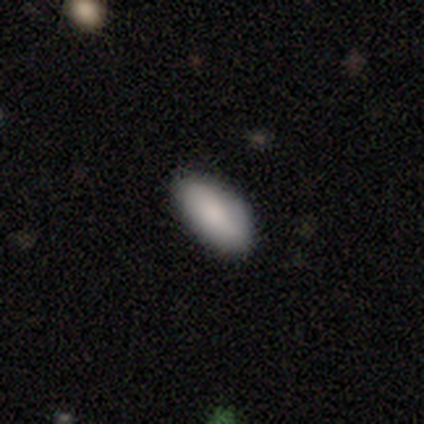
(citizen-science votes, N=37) This is clearly a smooth galaxy (89%). How rounded: clearly in between (94%). Merging: clearly none (86%).